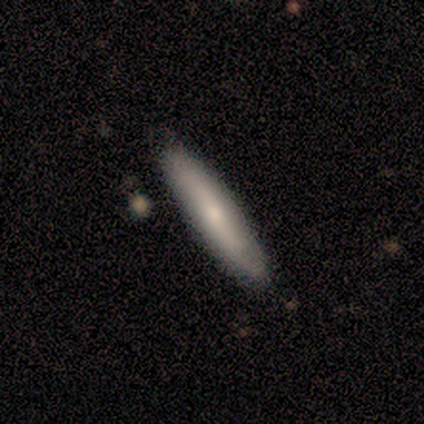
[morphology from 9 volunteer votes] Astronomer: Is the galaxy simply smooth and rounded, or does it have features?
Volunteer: smooth — 56% (runner-up: featured or disk, 44%).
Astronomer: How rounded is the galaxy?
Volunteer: cigar-shaped — 100%.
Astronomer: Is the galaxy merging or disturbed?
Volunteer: none — 67%.